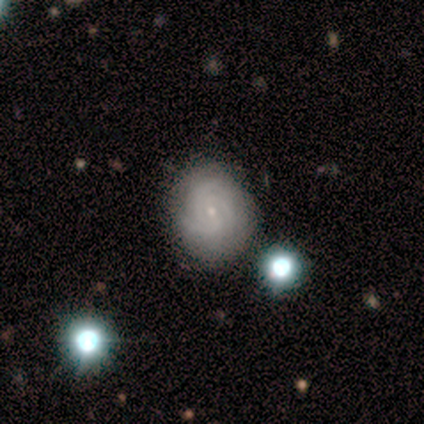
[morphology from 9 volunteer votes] Smooth or featured? smooth (44%, tied with featured or disk)
How rounded? round (100%)
Merging? none (75%)